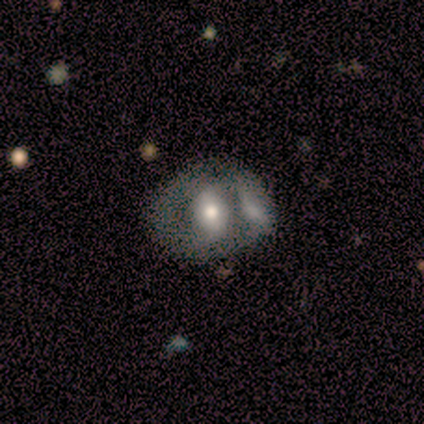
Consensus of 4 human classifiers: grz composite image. It shows a featured or disk galaxy (50%) with no bar (100%), 2 (100%) medium (100%) spiral arms (50%, tied with no) and a moderate central bulge (50%, tied with small). Merging: minor disturbance (67%).